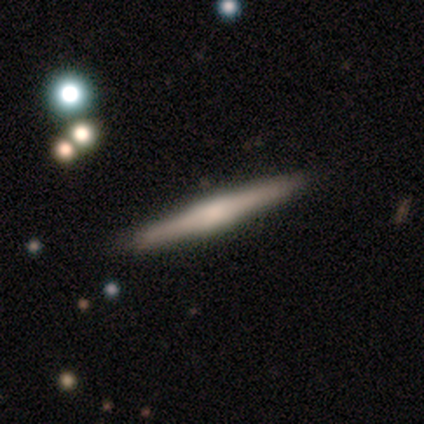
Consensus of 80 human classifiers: A featured or disk galaxy (78%) viewed edge-on (95%) with a boxy central bulge (51%).

Vote fractions:
- Smooth or featured? featured or disk: 78% / smooth: 19% / star or artifact: 4%
- Edge-on disk? yes: 95% / no: 5%
- Edge-on bulge? boxy: 51% / rounded: 36% / none: 14%
- Merging? none: 95% / minor disturbance: 4% / merger: 1% / major disturbance: 0%